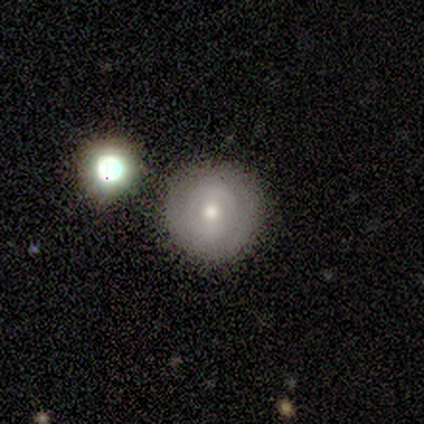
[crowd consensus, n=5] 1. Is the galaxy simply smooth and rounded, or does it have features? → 80% smooth, 20% featured or disk, 0% star or artifact.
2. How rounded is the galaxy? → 100% round, 0% in between, 0% cigar-shaped.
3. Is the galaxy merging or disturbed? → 80% none, 20% minor disturbance, 0% major disturbance, 0% merger.